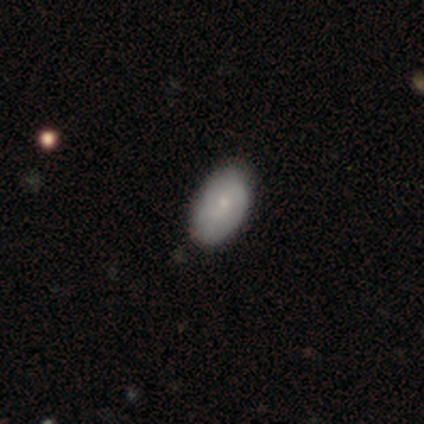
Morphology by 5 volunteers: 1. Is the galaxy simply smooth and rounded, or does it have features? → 100% smooth, 0% featured or disk, 0% star or artifact.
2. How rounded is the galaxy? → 100% in between, 0% round, 0% cigar-shaped.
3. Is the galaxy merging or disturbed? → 80% none, 20% minor disturbance, 0% major disturbance, 0% merger.